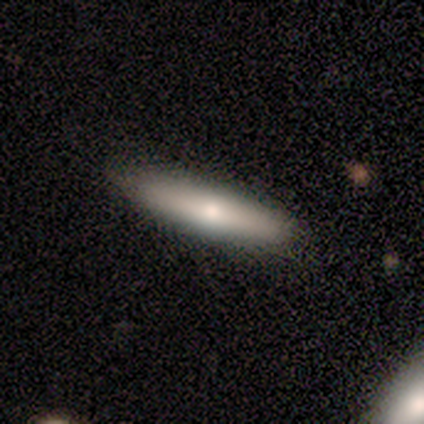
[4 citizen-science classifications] Smooth or featured? smooth (50%, tied with featured or disk)
How rounded? cigar-shaped (100%)
Merging? none (100%)